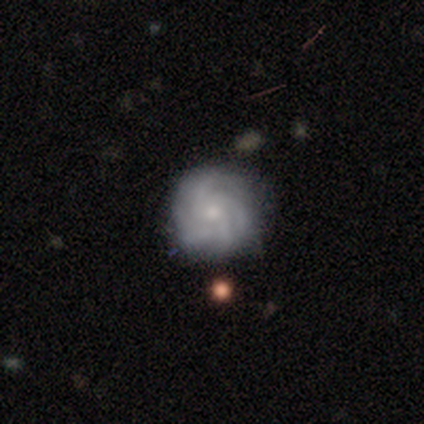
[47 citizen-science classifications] This appears to be a featured or disk galaxy (81%) with no bar (78%), 4 (37%) tight (83%) spiral arms (95%) and a small central bulge (76%). Merging: none (84%).